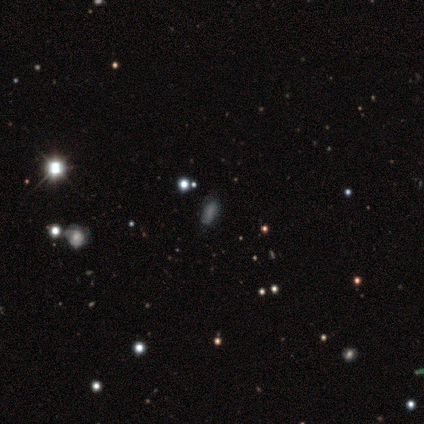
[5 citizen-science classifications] This is likely a smooth galaxy (60%). How rounded: likely in between (67%). Merging: likely none (67%).